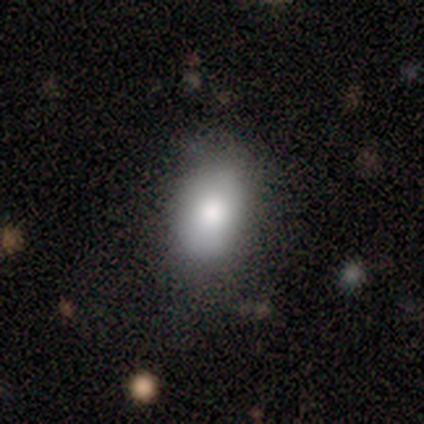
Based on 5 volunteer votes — This is clearly a smooth galaxy (100%). How rounded: clearly in between (80%). Merging: likely none (60%).